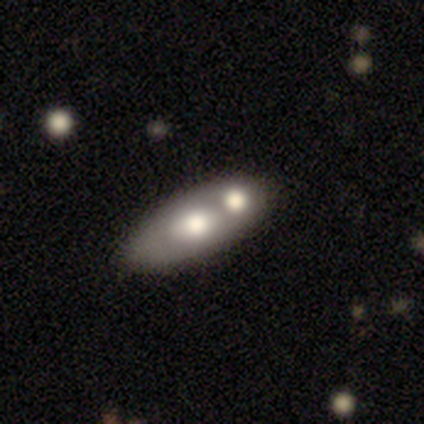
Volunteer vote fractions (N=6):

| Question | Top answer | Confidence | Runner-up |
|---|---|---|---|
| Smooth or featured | smooth | 83% | featured or disk (17%) |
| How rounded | in between | 80% | round (20%) |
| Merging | none | 50% | merger (33%) |